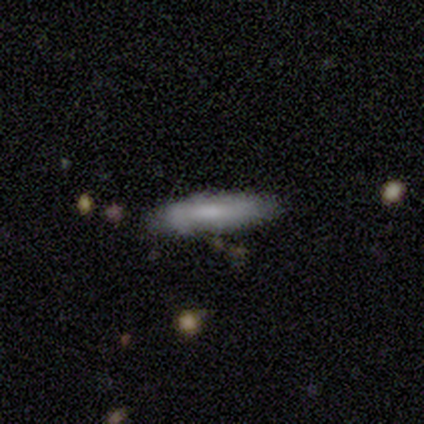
Overall: featured or disk (75%). Edge-on disk: yes (67%; no 33%). Edge-on bulge: none (100%). Merging: none (50%, tied with minor disturbance).